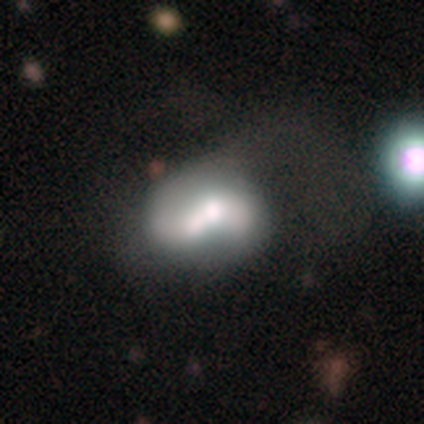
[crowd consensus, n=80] Q: Smooth or featured?
A: smooth (45%); runner-up: featured or disk (44%)
Q: How rounded?
A: in between (72%); runner-up: round (28%)
Q: Merging?
A: merger (38%); runner-up: none (17%)